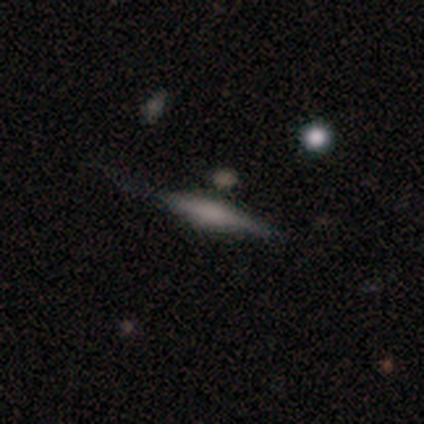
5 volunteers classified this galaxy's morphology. featured or disk 100%, smooth 0%, star or artifact 0%. Down the decision tree: edge-on disk — yes (80%); edge-on bulge — none (50%); merging — none (60%).